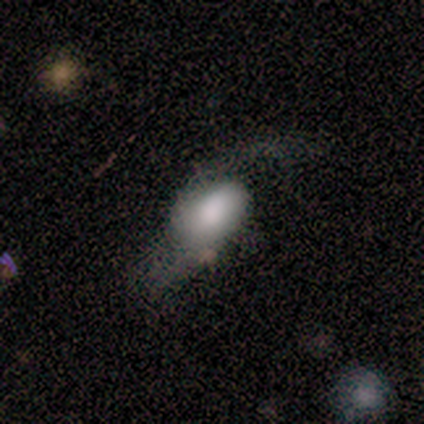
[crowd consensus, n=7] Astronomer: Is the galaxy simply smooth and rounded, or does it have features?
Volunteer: smooth — 57% (runner-up: featured or disk, 43%).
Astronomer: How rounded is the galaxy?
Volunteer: in between — 100%.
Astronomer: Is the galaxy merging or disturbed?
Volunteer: none — 43%, tied with major disturbance at 43%.